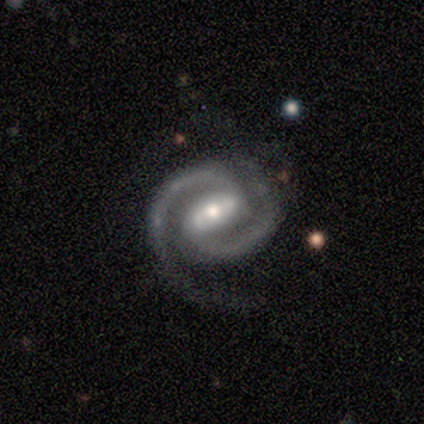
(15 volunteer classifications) A featured or disk galaxy (87%) with a strong bar (85%), 2 (100%) tight (54%) spiral arms (100%) and a moderate central bulge (69%).

Vote fractions:
- Smooth or featured? featured or disk: 87% / star or artifact: 13% / smooth: 0%
- Edge-on disk? no: 100% / yes: 0%
- Bar? strong: 85% / weak: 8% / no: 8%
- Spiral arms? yes: 100% / no: 0%
- Spiral winding? tight: 54% / medium: 46% / loose: 0%
- Spiral arm count? 2: 100% / 1: 0% / 3: 0% / 4: 0% / more than 4: 0% / can't tell: 0%
- Bulge size? moderate: 69% / small: 31% / dominant: 0% / large: 0% / none: 0%
- Merging? minor disturbance: 54% / none: 46% / major disturbance: 0% / merger: 0%